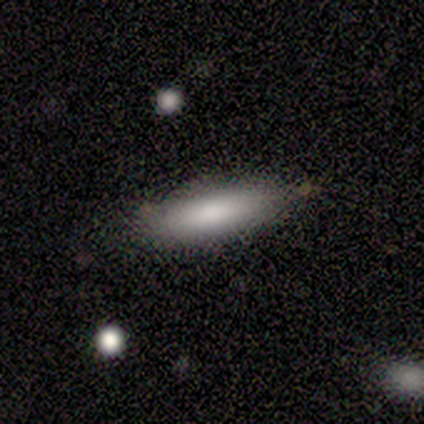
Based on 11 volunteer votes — Morphology: type=smooth (100%); roundness=cigar-shaped (73%); merging=none (82%).